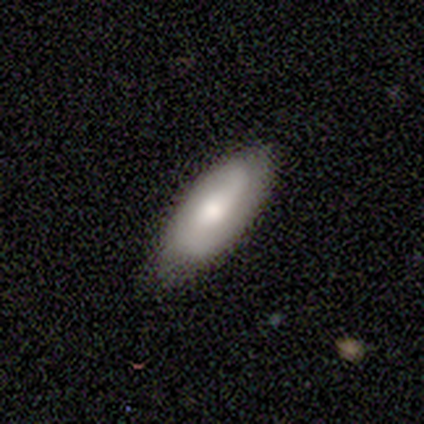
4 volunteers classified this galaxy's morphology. Volunteers were most divided on "bulge size" (3-way tie): moderate: 33%, small: 33%, none: 33%, dominant: 0%, large: 0%. More confident: edge-on disk — no (100%); spiral arms — yes (100%); merging — none (100%); smooth or featured — featured or disk (75%); bar — no (67%); spiral winding — medium (67%); spiral arm count — 2 (67%).